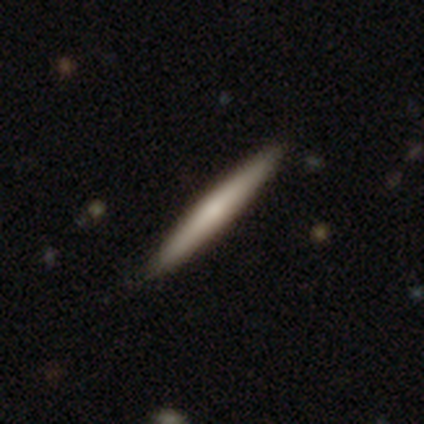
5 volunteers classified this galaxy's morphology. This appears to be a smooth galaxy with no disk features (80%) that is cigar-shaped (100%). Merging: none (100%).